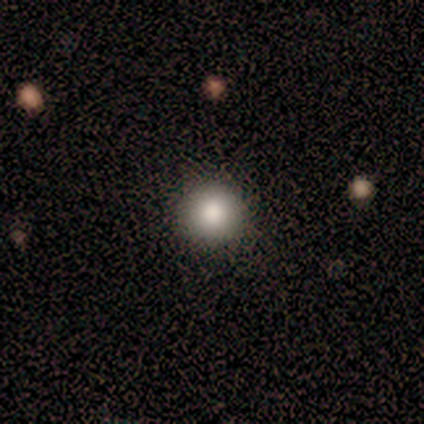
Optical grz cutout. It shows a smooth galaxy with no disk features (75%) that is round (100%). Merging: none (100%).